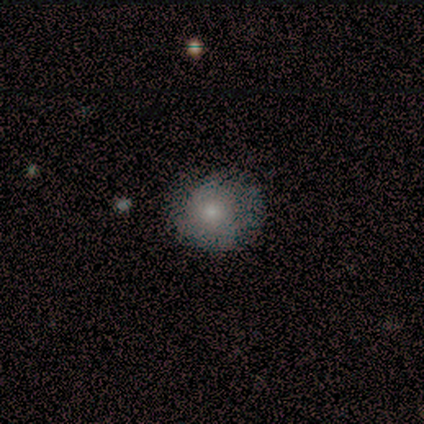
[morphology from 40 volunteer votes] smooth_or_featured: smooth (p=0.72) [alt: featured or disk p=0.23]
how_rounded: round (p=0.72) [alt: in between p=0.28]
merging: none (p=0.61) [alt: minor disturbance p=0.13]